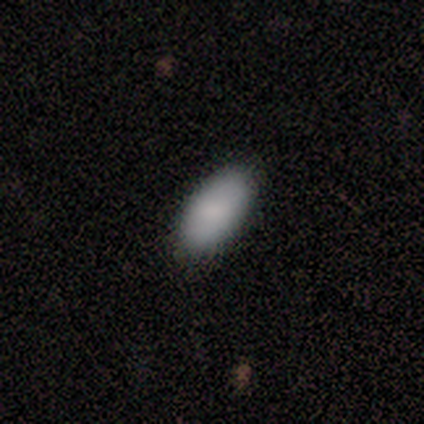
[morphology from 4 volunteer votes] This appears to be a smooth galaxy with no disk features (75%) that is in between round and cigar-shaped (100%). Merging: none (67%).